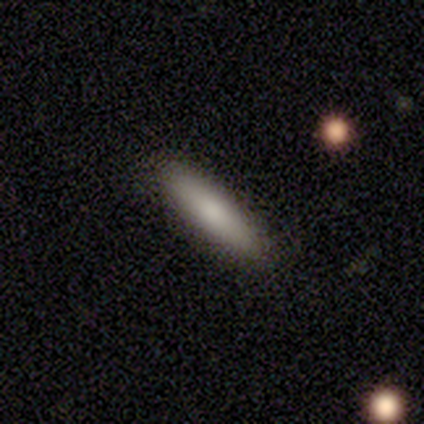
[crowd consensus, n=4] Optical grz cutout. It shows a smooth galaxy with no disk features (100%) that is cigar-shaped (75%). Merging: none (100%).